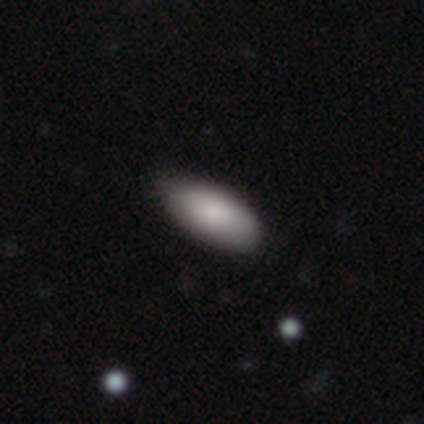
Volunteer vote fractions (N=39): smooth_or_featured: smooth (p=0.74) [alt: featured or disk p=0.18]
how_rounded: in between (p=0.86) [alt: cigar-shaped p=0.10]
merging: none (p=0.92) [alt: minor disturbance p=0.08]